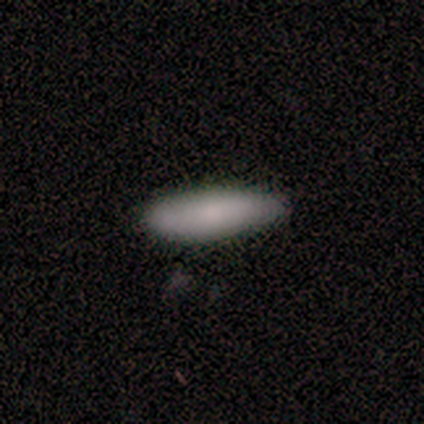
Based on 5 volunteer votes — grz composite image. It shows a smooth galaxy with no disk features (100%) that is cigar-shaped (60%). Merging: none (100%).